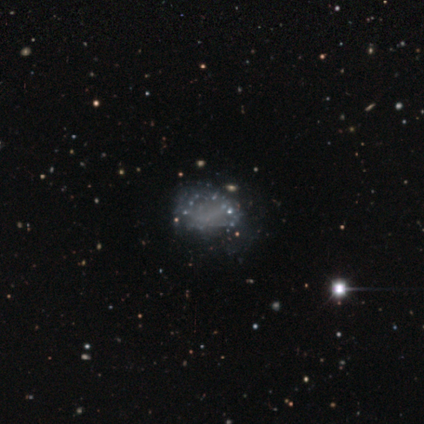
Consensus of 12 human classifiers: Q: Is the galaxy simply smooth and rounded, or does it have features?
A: featured or disk — 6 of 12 (50%).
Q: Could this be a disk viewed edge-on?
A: no — 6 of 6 (100%).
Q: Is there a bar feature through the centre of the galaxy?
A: no — 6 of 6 (100%).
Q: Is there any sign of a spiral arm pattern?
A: no — 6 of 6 (100%).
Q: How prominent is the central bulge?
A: none — 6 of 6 (100%).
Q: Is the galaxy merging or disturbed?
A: none — 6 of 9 (67%).